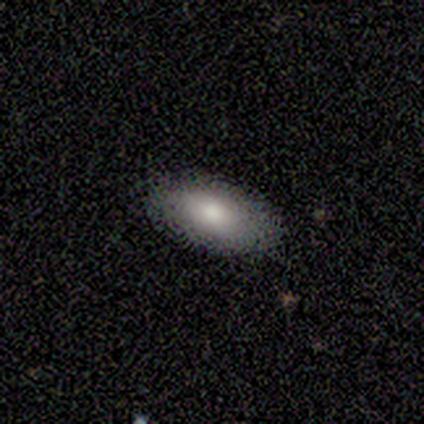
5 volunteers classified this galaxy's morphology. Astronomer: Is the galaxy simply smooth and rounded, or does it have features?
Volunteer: smooth — 80%.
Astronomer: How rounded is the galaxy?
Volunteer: in between — 100%.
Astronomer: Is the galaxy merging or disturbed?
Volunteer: none — 100%.